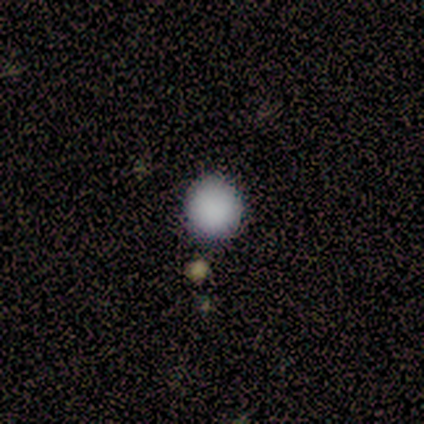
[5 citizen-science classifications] smooth 80%, star or artifact 20%, featured or disk 0%. Down the decision tree: how rounded — round (100%); merging — none (75%).